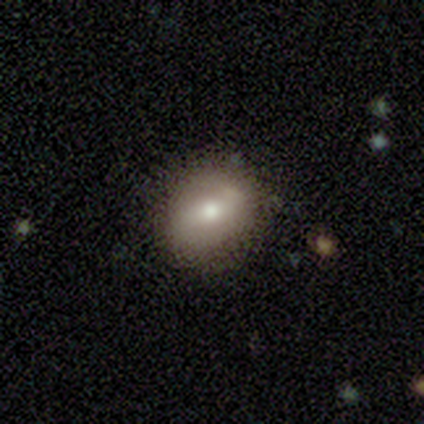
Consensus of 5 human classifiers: smooth-or-featured: featured or disk: 60% | smooth: 40% | star or artifact: 0%
  disk-edge-on: no: 100% | yes: 0%
    bar: strong: 67% | weak: 33% | no: 0%
    has-spiral-arms: yes: 100% | no: 0%
      spiral-winding: loose: 67% | medium: 33% | tight: 0%
      spiral-arm-count: 2: 67% | 1: 33% | 3: 0% | 4: 0% | more than 4: 0% | can't tell: 0%
    bulge-size: moderate: 67% | large: 33% | dominant: 0% | small: 0% | none: 0%
  merging: none: 80% | minor disturbance: 20% | major disturbance: 0% | merger: 0%